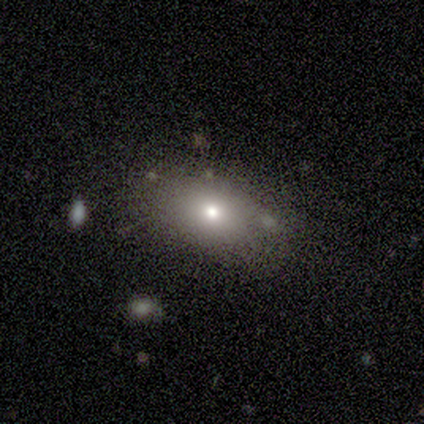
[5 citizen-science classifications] Overall: star or artifact (60%; smooth 40%).